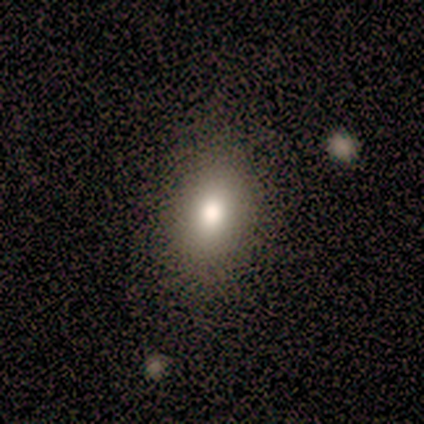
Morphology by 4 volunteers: Q: Smooth or featured?
A: smooth (100%)
Q: How rounded?
A: in between (100%)
Q: Merging?
A: none (50%); tied with: minor disturbance (50%)